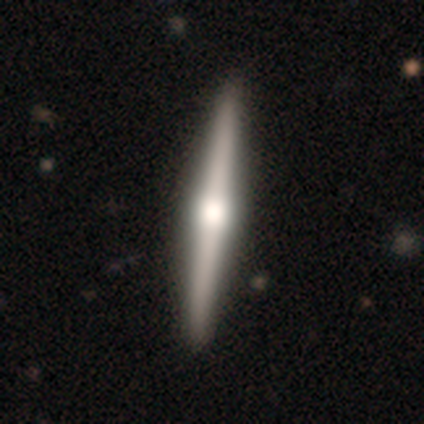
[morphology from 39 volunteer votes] This is likely a featured or disk galaxy (74%). It is clearly viewed edge-on (97%). Edge-on bulge: clearly rounded (93%). Merging: likely none (72%).